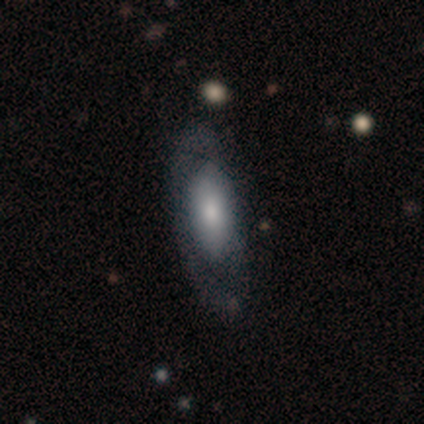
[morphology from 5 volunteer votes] smooth-or-featured: smooth: 60% | featured or disk: 40% | star or artifact: 0%
  how-rounded: cigar-shaped: 67% | in between: 33% | round: 0%
  merging: major disturbance: 60% | none: 40% | minor disturbance: 0% | merger: 0%